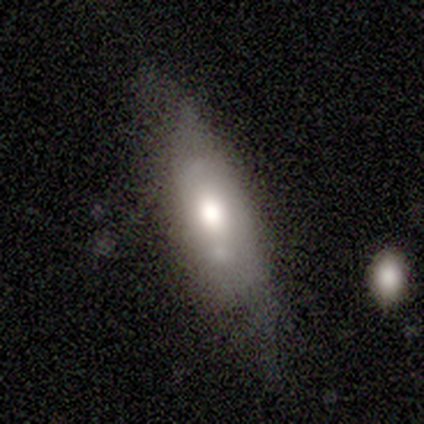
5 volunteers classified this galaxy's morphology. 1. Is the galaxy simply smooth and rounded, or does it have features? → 60% smooth, 40% featured or disk, 0% star or artifact.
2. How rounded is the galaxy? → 67% in between, 33% cigar-shaped, 0% round.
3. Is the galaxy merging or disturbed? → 60% none, 40% minor disturbance, 0% major disturbance, 0% merger.